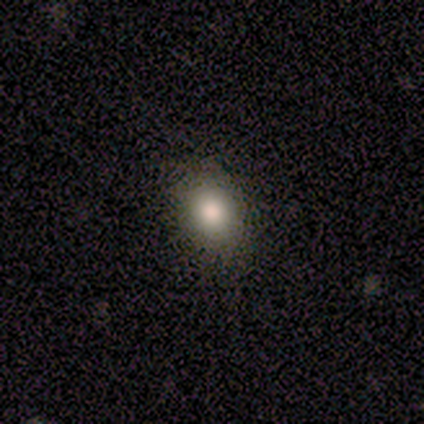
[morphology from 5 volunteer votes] type=smooth (60%); roundness=in between (67%); merging=none (67%).